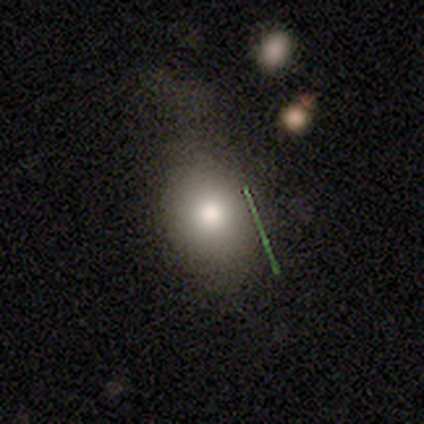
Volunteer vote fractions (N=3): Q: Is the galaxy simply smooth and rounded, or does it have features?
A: smooth — 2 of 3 (67%).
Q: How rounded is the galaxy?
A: round — 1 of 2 (50%, tied with in between).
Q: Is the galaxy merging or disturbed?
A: none — 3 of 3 (100%).